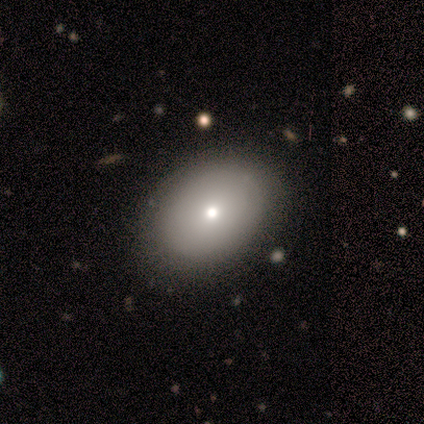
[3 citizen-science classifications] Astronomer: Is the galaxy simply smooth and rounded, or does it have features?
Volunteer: smooth — 100%.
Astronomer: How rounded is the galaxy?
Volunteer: in between — 67%.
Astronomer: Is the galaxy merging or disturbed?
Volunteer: none — 100%.